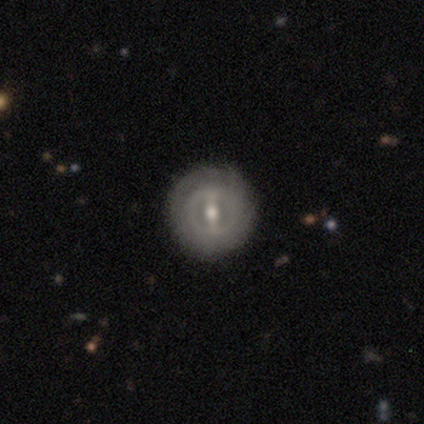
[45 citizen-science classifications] Morphology: type=featured or disk (67%); edge-on=no (93%); bar=strong (64%); spiral arms=no (64%); bulge=moderate (71%); merging=none (88%).